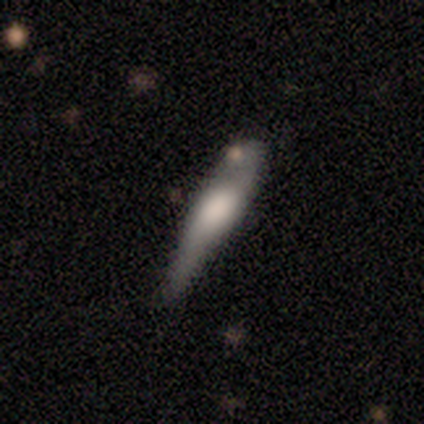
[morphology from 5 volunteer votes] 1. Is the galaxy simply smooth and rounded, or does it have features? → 80% smooth, 20% featured or disk, 0% star or artifact.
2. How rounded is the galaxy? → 100% cigar-shaped, 0% round, 0% in between.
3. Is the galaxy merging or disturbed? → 40% none (tied), 40% major disturbance (tied), 20% minor disturbance, 0% merger.